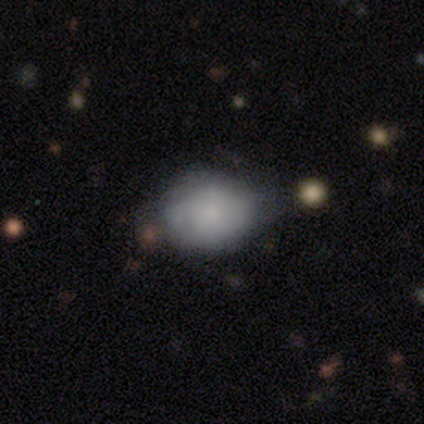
A smooth galaxy with no disk features (62%) that is in between round and cigar-shaped (70%).

Vote fractions:
- Smooth or featured? smooth: 62% / featured or disk: 30% / star or artifact: 8%
- How rounded? in between: 70% / round: 30% / cigar-shaped: 0%
- Merging? none: 56% / minor disturbance: 35% / merger: 6% / major disturbance: 3%